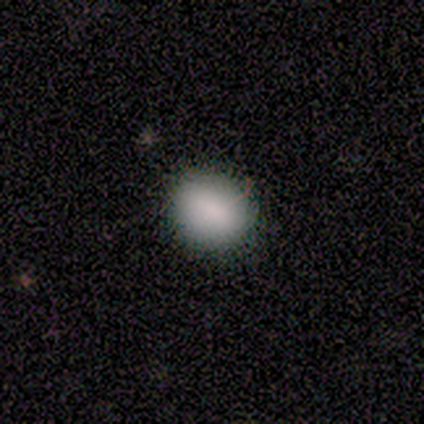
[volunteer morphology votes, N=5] This is clearly a smooth galaxy (80%). How rounded: possibly round (50%, tied with in between). Merging: clearly none (80%).